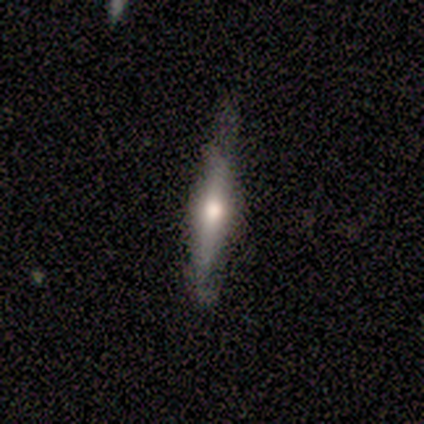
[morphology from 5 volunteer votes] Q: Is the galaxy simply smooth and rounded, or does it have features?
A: featured or disk — 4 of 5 (80%).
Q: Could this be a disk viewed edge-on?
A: yes — 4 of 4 (100%).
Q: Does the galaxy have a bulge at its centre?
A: rounded — 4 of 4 (100%).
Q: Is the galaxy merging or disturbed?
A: none — 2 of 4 (50%, tied with minor disturbance).